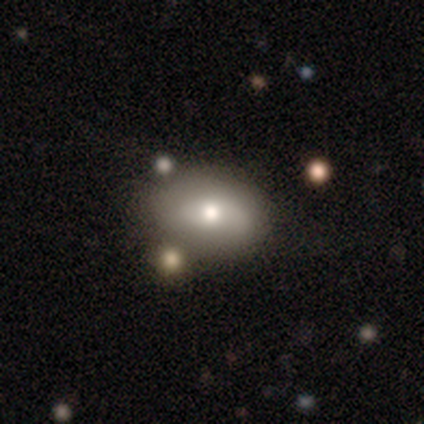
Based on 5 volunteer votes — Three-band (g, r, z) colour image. It shows a smooth galaxy with no disk features (80%) that is in between round and cigar-shaped (100%). Merging: none (100%).